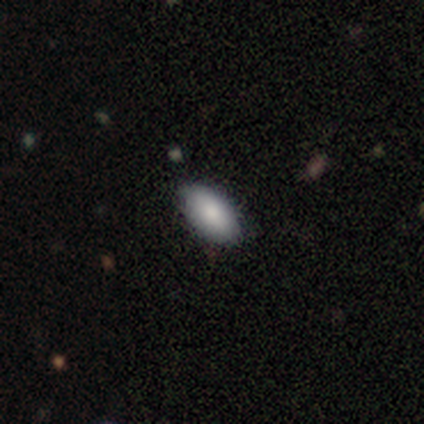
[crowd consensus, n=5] Smooth or featured?
  - smooth: 80% *
  - star or artifact: 20%
  - featured or disk: 0%
How rounded?
  - in between: 100% *
  - round: 0%
  - cigar-shaped: 0%
Merging?
  - none: 100% *
  - minor disturbance: 0%
  - major disturbance: 0%
  - merger: 0%